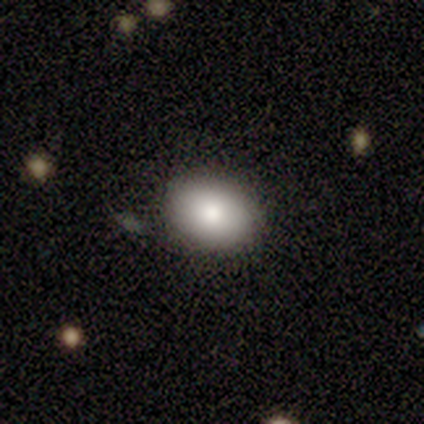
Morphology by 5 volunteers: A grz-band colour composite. It shows a smooth galaxy with no disk features (80%) that is round (100%). Merging: none (100%).